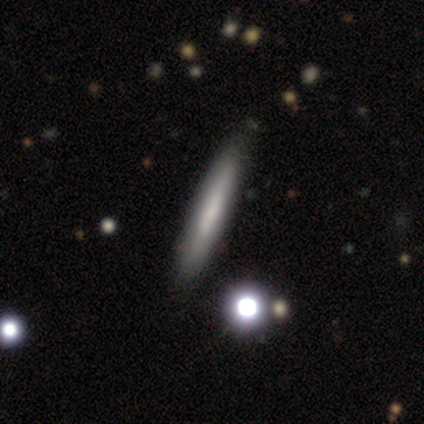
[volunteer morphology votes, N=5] Q: Smooth or featured?
A: smooth (60%); runner-up: featured or disk (40%)
Q: How rounded?
A: cigar-shaped (100%)
Q: Merging?
A: none (60%); runner-up: minor disturbance (40%)